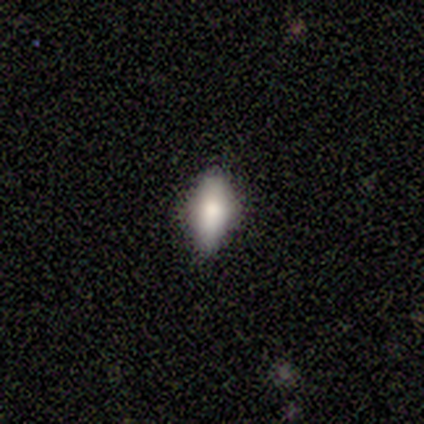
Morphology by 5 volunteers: Overall: smooth (80%). How rounded: in between (100%). Merging: none (75%).